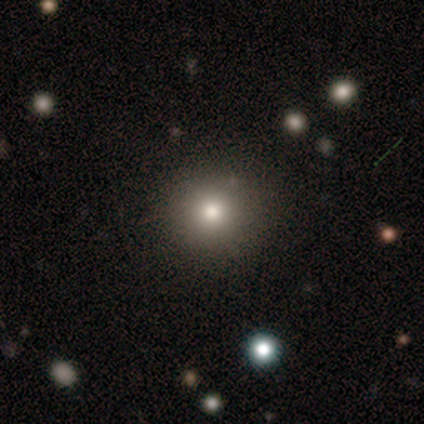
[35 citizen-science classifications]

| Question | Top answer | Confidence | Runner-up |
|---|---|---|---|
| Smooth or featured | smooth | 74% | featured or disk (17%) |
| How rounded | round | 100% | — |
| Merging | none | 97% | major disturbance (3%) |